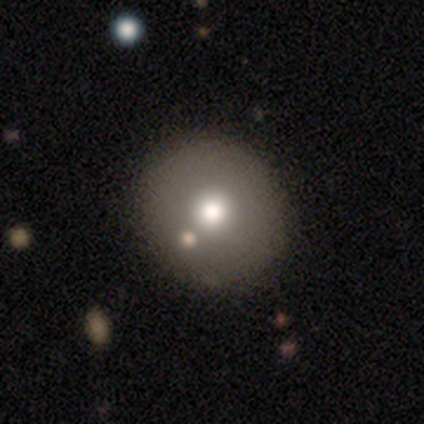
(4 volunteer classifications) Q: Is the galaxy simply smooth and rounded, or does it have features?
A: featured or disk — 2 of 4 (50%).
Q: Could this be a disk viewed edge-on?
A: no — 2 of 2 (100%).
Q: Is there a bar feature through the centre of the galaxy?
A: no — 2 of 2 (100%).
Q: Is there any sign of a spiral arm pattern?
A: no — 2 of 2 (100%).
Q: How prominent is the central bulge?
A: moderate — 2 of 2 (100%).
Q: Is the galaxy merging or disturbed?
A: none — 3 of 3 (100%).